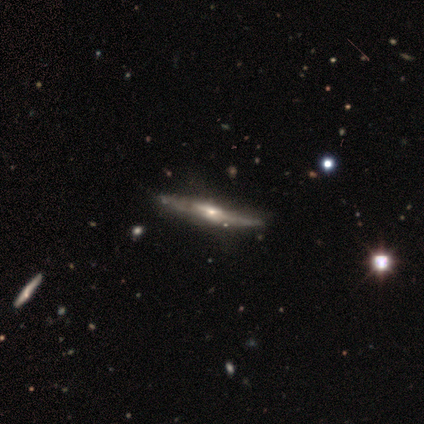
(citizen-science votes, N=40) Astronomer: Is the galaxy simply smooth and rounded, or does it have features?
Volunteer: featured or disk — 90%.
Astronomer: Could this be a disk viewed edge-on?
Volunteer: yes — 89%.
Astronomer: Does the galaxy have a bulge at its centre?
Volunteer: rounded — 62%.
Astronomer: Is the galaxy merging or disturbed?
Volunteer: none — 67%.